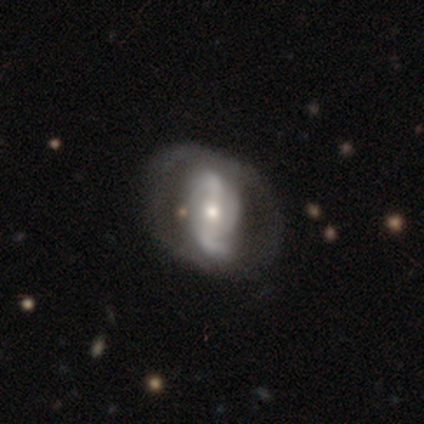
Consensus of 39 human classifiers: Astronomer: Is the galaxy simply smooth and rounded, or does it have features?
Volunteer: featured or disk — 87%.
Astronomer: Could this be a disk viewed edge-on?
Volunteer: no — 97%.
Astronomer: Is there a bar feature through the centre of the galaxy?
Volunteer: weak — 39%, tied with no at 39%.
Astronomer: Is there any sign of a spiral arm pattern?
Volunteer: yes — 97%.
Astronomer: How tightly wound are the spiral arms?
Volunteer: loose — 59%.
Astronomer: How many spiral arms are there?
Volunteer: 2 — 81%.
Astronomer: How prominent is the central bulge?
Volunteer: moderate — 48% (runner-up: small, 42%).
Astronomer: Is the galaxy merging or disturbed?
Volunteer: none — 47%.